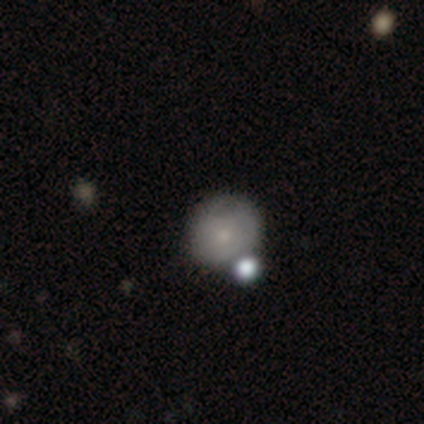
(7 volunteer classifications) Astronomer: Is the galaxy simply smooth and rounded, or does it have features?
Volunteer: smooth — 57% (runner-up: featured or disk, 43%).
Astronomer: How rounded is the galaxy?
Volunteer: round — 100%.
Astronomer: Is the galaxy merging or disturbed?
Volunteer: none — 43% (runner-up: minor disturbance, 29%).